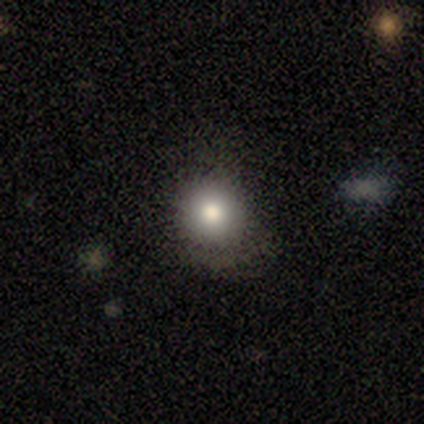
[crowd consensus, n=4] smooth-or-featured: star or artifact: 50% | smooth: 25% | featured or disk: 25%